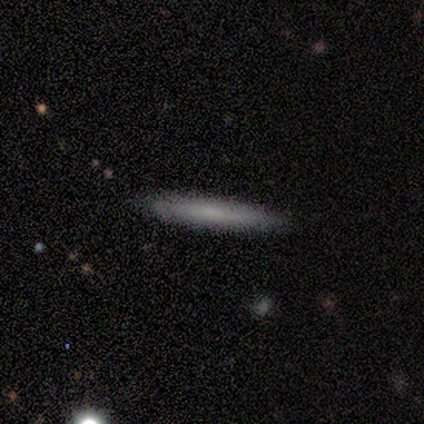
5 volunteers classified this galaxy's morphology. Volunteers were most divided on "smooth or featured": smooth: 60%, featured or disk: 40%, star or artifact: 0%. More confident: how rounded — cigar-shaped (100%); merging — none (100%).